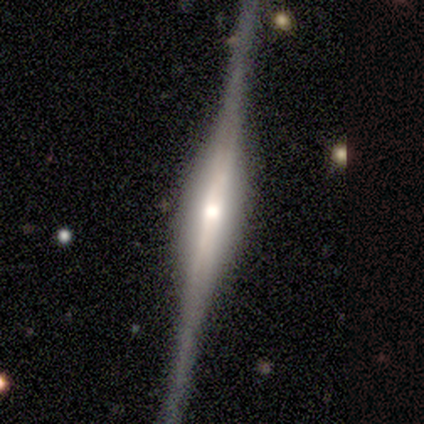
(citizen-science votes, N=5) Smooth or featured: featured or disk — 60% (smooth — 40%)
Edge-on disk: yes — 100%
Edge-on bulge: rounded — 67% (boxy — 33%)
Merging: none — 60% (minor disturbance — 20%)